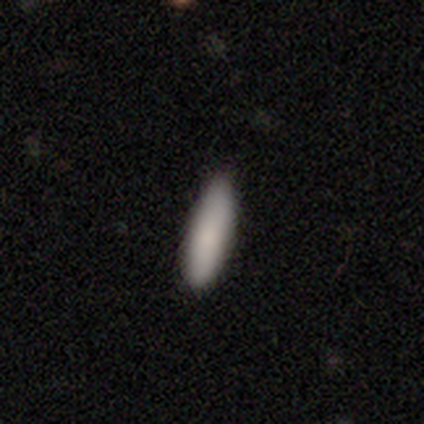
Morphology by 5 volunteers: A smooth galaxy with no disk features (100%) that is cigar-shaped (60%).

Vote fractions:
- Smooth or featured? smooth: 100% / featured or disk: 0% / star or artifact: 0%
- How rounded? cigar-shaped: 60% / in between: 40% / round: 0%
- Merging? none: 100% / minor disturbance: 0% / major disturbance: 0% / merger: 0%